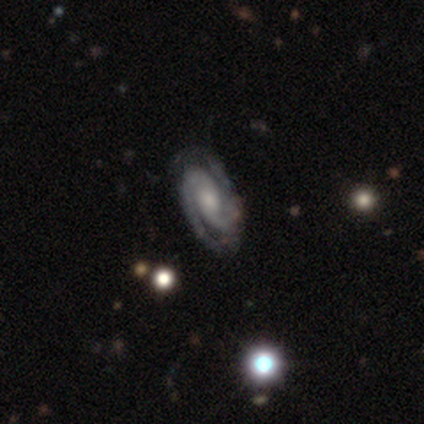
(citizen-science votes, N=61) smooth_or_featured: featured or disk (p=1.00)
disk_edge_on: no (p=1.00)
bar: no (p=0.54) [alt: weak p=0.38]
has_spiral_arms: yes (p=1.00)
spiral_winding: tight (p=0.59) [alt: medium p=0.41]
spiral_arm_count: 2 (p=0.93) [alt: 3 p=0.07]
bulge_size: moderate (p=0.49) [alt: small p=0.41]
merging: none (p=0.90) [alt: minor disturbance p=0.10]